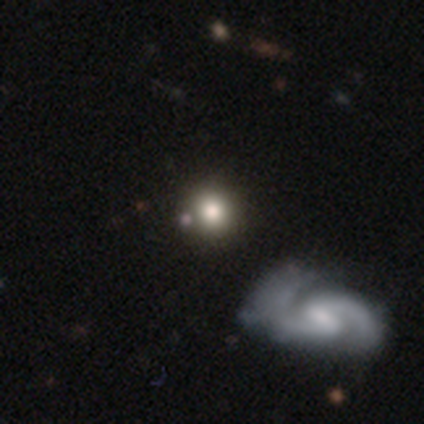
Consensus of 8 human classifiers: This appears to be a smooth galaxy with no disk features (50%) that is round (100%). Merging: none (67%).